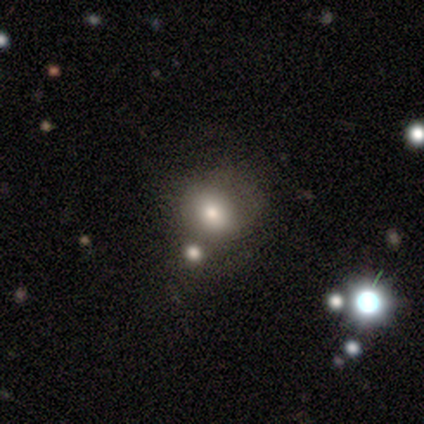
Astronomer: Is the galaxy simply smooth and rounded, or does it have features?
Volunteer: smooth — 60% (runner-up: star or artifact, 40%).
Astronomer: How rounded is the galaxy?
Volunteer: round — 67%.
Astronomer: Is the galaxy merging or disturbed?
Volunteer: none — 67%.